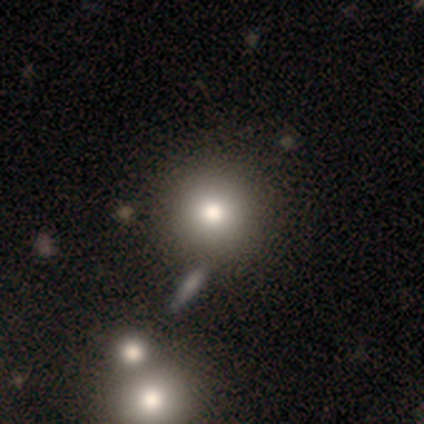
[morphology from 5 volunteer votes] smooth 60%, featured or disk 20%, star or artifact 20%. Down the decision tree: how rounded — round (100%); merging — none (50%, tied with merger).